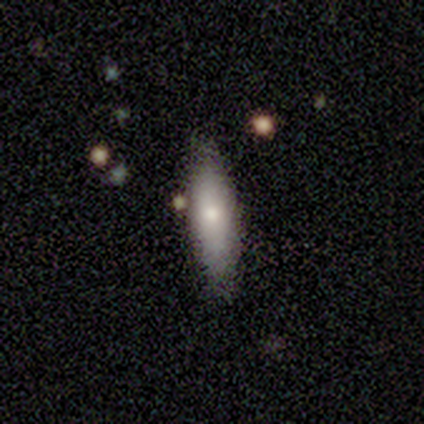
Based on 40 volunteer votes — Overall: smooth (57%; featured or disk 38%). How rounded: in between (52%; cigar-shaped 43%). Merging: none (79%).